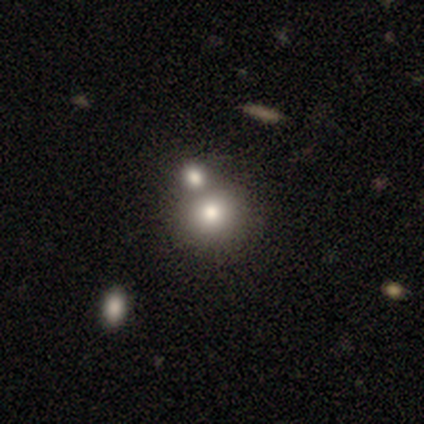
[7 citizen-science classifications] smooth_or_featured: smooth (p=0.71) [alt: featured or disk p=0.14]
how_rounded: round (p=1.00)
merging: none (p=0.50) [tied with: merger p=0.50]